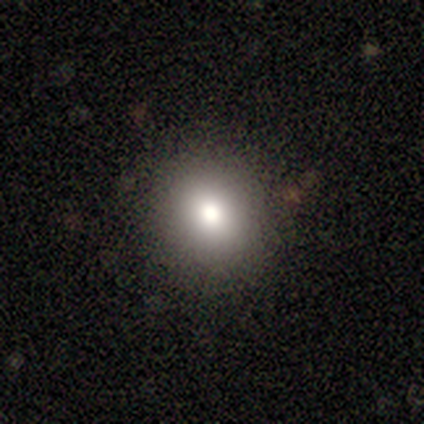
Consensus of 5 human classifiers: A smooth galaxy with no disk features (80%) that is round (50%, tied with in between). Merging: none (60%).